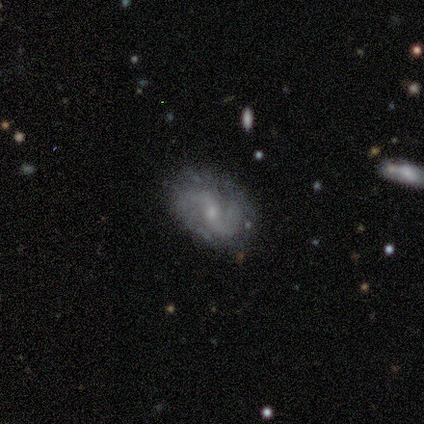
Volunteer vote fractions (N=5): featured or disk 80%, smooth 20%, star or artifact 0%. Down the decision tree: edge-on disk — no (100%); bar — weak (50%, tied with no); spiral arms — yes (100%); spiral arm count — 2 (75%); spiral winding — medium (75%); bulge size — small (75%); merging — none (100%).